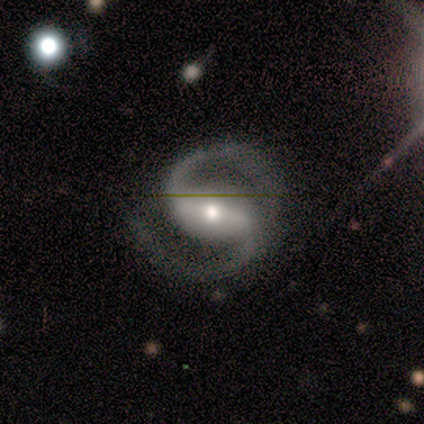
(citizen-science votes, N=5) Volunteers were most divided on "spiral winding" (2-way tie): medium: 40%, loose: 40%, tight: 20%. More confident: smooth or featured — featured or disk (100%); edge-on disk — no (100%); spiral arms — yes (100%); spiral arm count — 2 (100%); bar — strong (60%); bulge size — small (60%); merging — minor disturbance (60%).